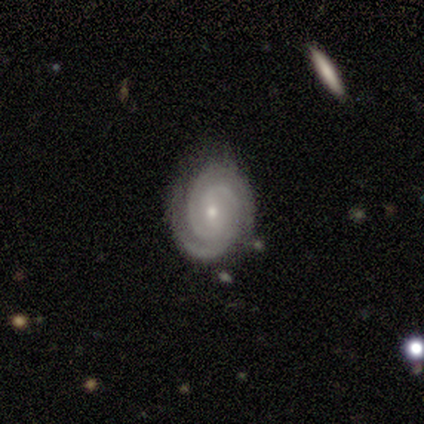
Q: Smooth or featured?
A: featured or disk (95%); runner-up: smooth (3%)
Q: Edge-on disk?
A: no (92%); runner-up: yes (8%)
Q: Bar?
A: weak (47%); runner-up: no (41%)
Q: Spiral arms?
A: yes (100%)
Q: Spiral winding?
A: tight (82%); runner-up: medium (18%)
Q: Spiral arm count?
A: 2 (71%); runner-up: 3 (24%)
Q: Bulge size?
A: small (59%); runner-up: moderate (41%)
Q: Merging?
A: none (84%); runner-up: minor disturbance (11%)